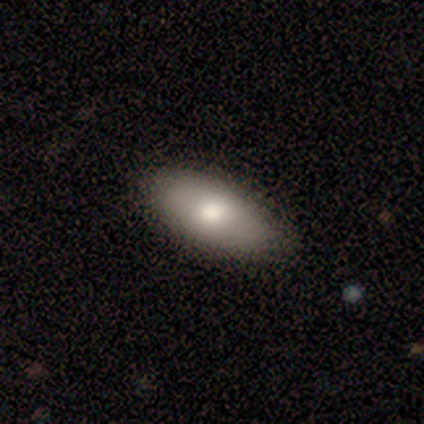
Q: Smooth or featured?
A: smooth (65%); runner-up: featured or disk (22%)
Q: How rounded?
A: in between (92%); runner-up: cigar-shaped (8%)
Q: Merging?
A: none (74%); runner-up: minor disturbance (26%)